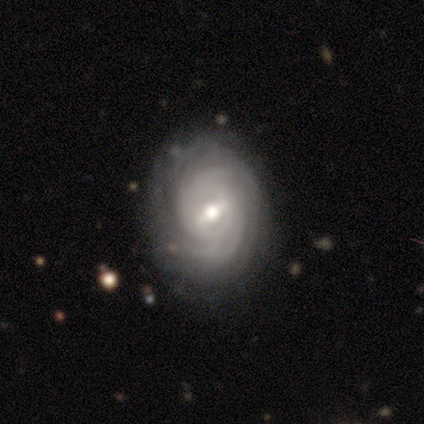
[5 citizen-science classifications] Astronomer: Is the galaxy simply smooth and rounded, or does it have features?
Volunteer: featured or disk — 80%.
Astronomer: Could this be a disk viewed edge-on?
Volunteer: no — 100%.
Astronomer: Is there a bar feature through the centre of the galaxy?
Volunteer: strong — 50%.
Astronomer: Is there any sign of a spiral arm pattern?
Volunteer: yes — 100%.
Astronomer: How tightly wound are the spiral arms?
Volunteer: tight — 75%.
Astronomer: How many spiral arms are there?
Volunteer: can't tell — 50%.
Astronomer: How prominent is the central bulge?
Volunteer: moderate — 100%.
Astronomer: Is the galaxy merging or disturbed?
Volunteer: none — 80%.